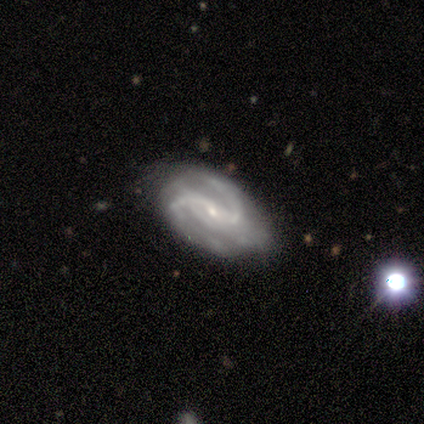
Smooth or featured? 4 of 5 (80%) said featured or disk. Edge-on disk? 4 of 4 (100%) said no. Bar? 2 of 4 (50%) said strong. Spiral arms? 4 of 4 (100%) said yes. Spiral winding? 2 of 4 (50%, tied with medium) said tight. Spiral arm count? 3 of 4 (75%) said 2. Bulge size? 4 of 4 (100%) said small. Merging? 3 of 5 (60%) said none.